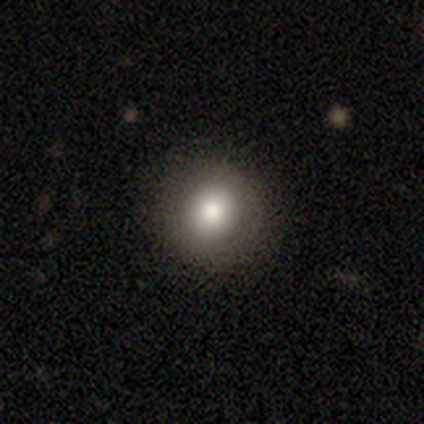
This appears to be a smooth galaxy with no disk features (72%) that is round (90%). Merging: none (92%).